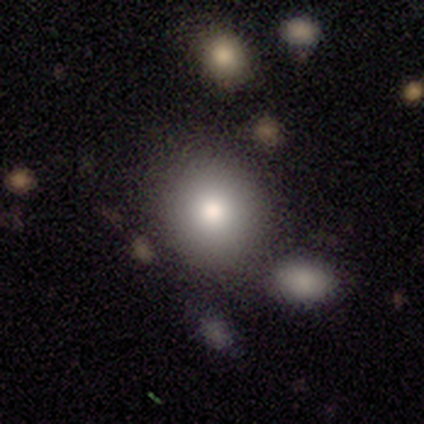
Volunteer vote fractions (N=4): A smooth galaxy with no disk features (100%) that is round (100%).

Vote fractions:
- Smooth or featured? smooth: 100% / featured or disk: 0% / star or artifact: 0%
- How rounded? round: 100% / in between: 0% / cigar-shaped: 0%
- Merging? none: 50% / minor disturbance: 25% / merger: 25% / major disturbance: 0%